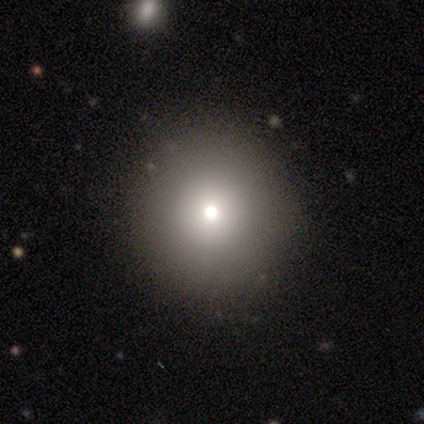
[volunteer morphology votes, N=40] Q: Smooth or featured?
A: smooth (75%); runner-up: featured or disk (15%)
Q: How rounded?
A: round (93%); runner-up: in between (3%)
Q: Merging?
A: none (97%); runner-up: minor disturbance (3%)